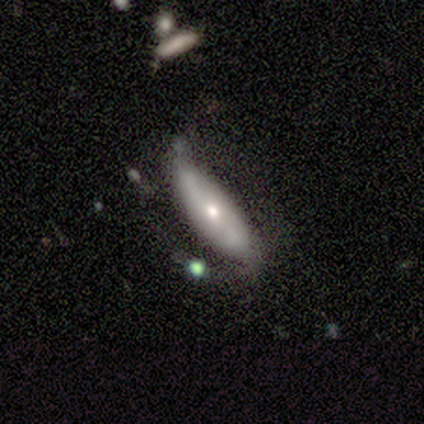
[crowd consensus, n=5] Q: Smooth or featured?
A: featured or disk (100%)
Q: Edge-on disk?
A: no (80%); runner-up: yes (20%)
Q: Bar?
A: strong (50%); tied with: weak (50%)
Q: Spiral arms?
A: yes (100%)
Q: Spiral winding?
A: tight (50%); tied with: loose (50%)
Q: Spiral arm count?
A: 2 (75%); runner-up: 1 (25%)
Q: Bulge size?
A: small (50%); runner-up: large (25%)
Q: Merging?
A: none (60%); runner-up: minor disturbance (20%)